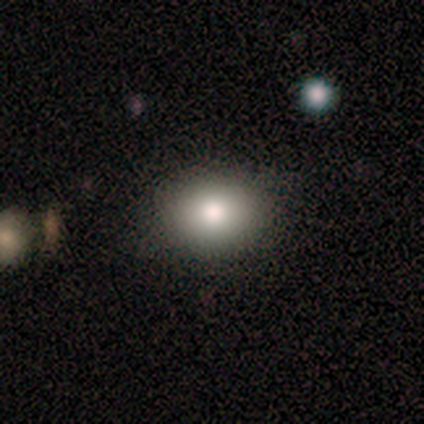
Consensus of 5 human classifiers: smooth-or-featured: smooth: 80% | star or artifact: 20% | featured or disk: 0%
  how-rounded: in between: 75% | round: 25% | cigar-shaped: 0%
  merging: none: 100% | minor disturbance: 0% | major disturbance: 0% | merger: 0%